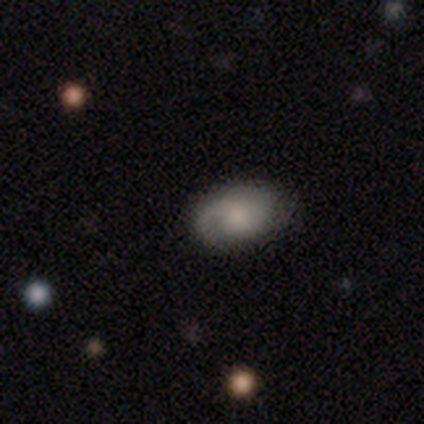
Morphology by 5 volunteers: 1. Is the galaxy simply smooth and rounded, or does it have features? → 60% featured or disk, 40% smooth, 0% star or artifact.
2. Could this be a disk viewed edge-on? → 100% no, 0% yes.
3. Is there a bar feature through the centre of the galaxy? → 100% no, 0% strong, 0% weak.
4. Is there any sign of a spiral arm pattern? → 100% yes, 0% no.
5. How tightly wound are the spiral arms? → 67% medium, 33% loose, 0% tight.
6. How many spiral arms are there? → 67% 1, 33% 2, 0% 3, 0% 4, 0% more than 4, 0% can't tell.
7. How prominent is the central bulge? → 33% large (tied), 33% moderate (tied), 33% small (tied), 0% dominant, 0% none.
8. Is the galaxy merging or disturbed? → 100% none, 0% minor disturbance, 0% major disturbance, 0% merger.